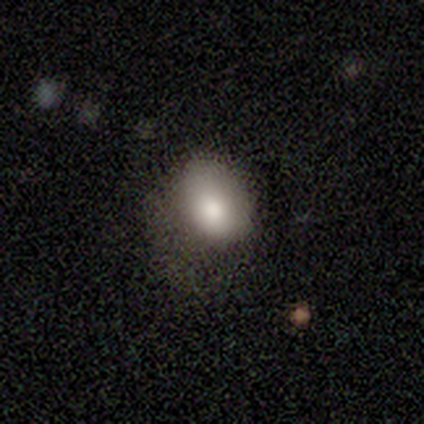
smooth-or-featured: smooth: 100% | featured or disk: 0% | star or artifact: 0%
  how-rounded: in between: 86% | round: 14% | cigar-shaped: 0%
  merging: minor disturbance: 57% | none: 29% | major disturbance: 14% | merger: 0%